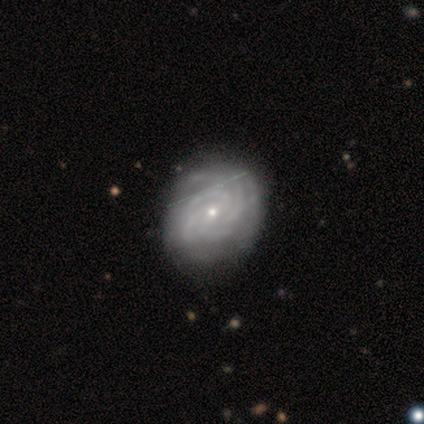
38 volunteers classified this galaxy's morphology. Smooth or featured? featured or disk (89%)
Edge-on disk? no (97%)
Bar? no (58%)
Spiral arms? yes (100%)
Spiral winding? tight (79%)
Spiral arm count? can't tell (39%)
Bulge size? small (61%)
Merging? none (53%)